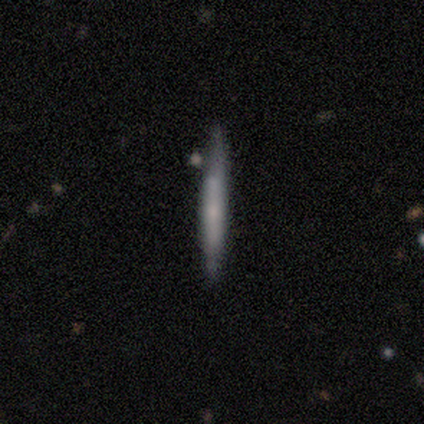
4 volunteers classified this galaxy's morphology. A smooth galaxy with no disk features (75%) that is cigar-shaped (100%).

Vote fractions:
- Smooth or featured? smooth: 75% / featured or disk: 25% / star or artifact: 0%
- How rounded? cigar-shaped: 100% / round: 0% / in between: 0%
- Merging? none: 100% / minor disturbance: 0% / major disturbance: 0% / merger: 0%